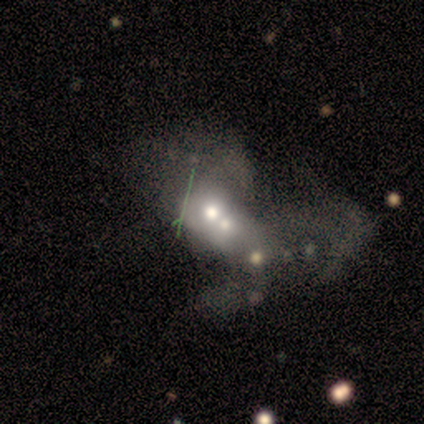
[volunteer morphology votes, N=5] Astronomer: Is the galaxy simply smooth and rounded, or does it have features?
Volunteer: smooth — 60% (runner-up: featured or disk, 40%).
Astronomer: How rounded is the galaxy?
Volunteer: round — 67%.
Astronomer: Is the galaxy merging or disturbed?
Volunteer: merger — 60%.